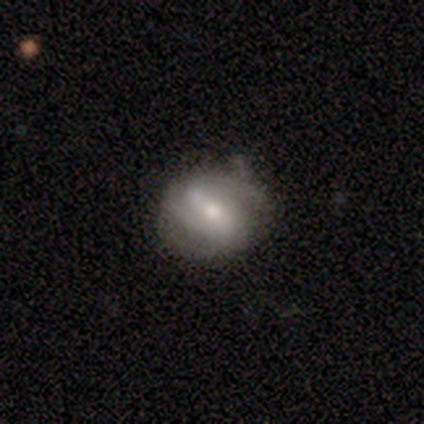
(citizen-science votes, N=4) featured or disk 75%, smooth 25%, star or artifact 0%. Down the decision tree: edge-on disk — no (100%); bar — strong (100%); spiral arms — yes (100%); spiral arm count — 1 (33%, tied with 2 and 3); spiral winding — medium (67%); bulge size — moderate (100%); merging — minor disturbance (50%).